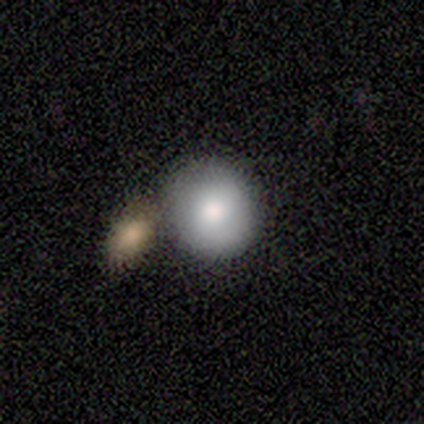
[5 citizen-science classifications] This appears to be a smooth galaxy with no disk features (40%, tied with featured or disk) that is round (100%). Merging: none (75%).